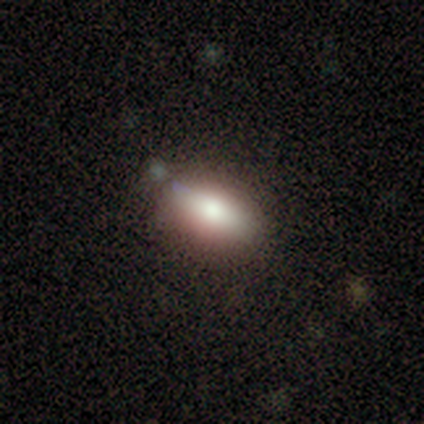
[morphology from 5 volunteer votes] This is clearly a smooth galaxy (80%). How rounded: clearly in between (100%). Merging: clearly none (100%).